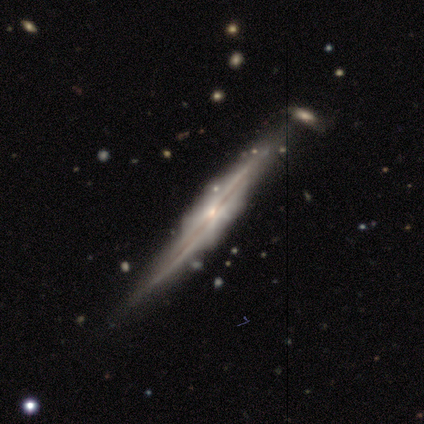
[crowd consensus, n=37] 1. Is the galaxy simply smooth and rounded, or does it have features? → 89% featured or disk, 5% smooth, 5% star or artifact.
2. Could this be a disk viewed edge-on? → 97% yes, 3% no.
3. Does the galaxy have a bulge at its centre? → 50% rounded, 25% boxy, 25% none.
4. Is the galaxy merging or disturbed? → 80% none, 9% merger, 6% minor disturbance, 6% major disturbance.